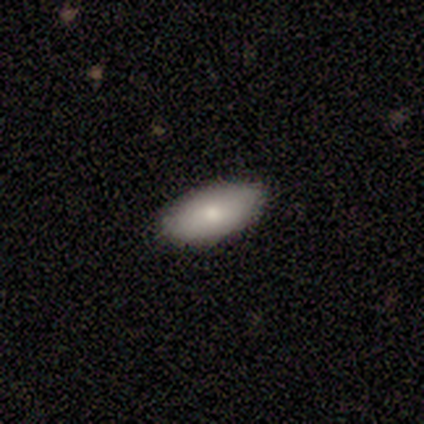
Smooth or featured: smooth — 75% (star or artifact — 25%)
How rounded: in between — 100%
Merging: none — 100%